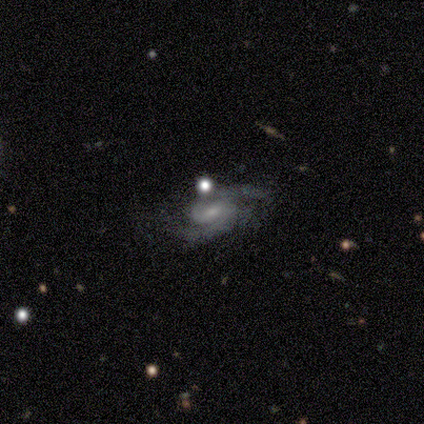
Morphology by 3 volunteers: type=featured or disk (100%); edge-on=no (100%); bar=weak (67%); spiral arms=yes (100%); winding=medium (67%); arm count=2 (100%); bulge=small (100%); merging=none (100%).